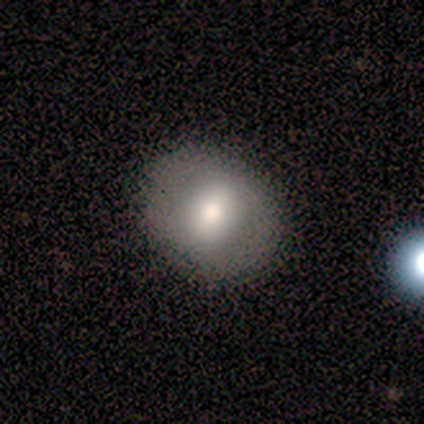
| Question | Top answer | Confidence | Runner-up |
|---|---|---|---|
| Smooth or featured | smooth | 56% | featured or disk (44%) |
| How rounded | round | 60% | in between (40%) |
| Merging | none | 89% | minor disturbance (11%) |